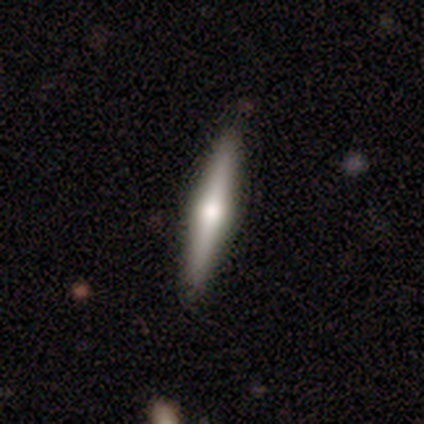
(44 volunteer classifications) A featured or disk galaxy (66%) viewed edge-on (100%) with a rounded central bulge (93%).

Vote fractions:
- Smooth or featured? featured or disk: 66% / smooth: 30% / star or artifact: 5%
- Edge-on disk? yes: 100% / no: 0%
- Edge-on bulge? rounded: 93% / boxy: 7% / none: 0%
- Merging? none: 93% / minor disturbance: 7% / major disturbance: 0% / merger: 0%